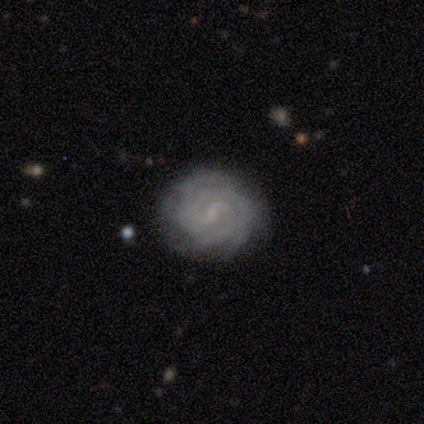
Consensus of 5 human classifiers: Morphology: type=featured or disk (80%); edge-on=no (100%); bar=no (75%); spiral arms=yes (100%); winding=tight (50%, tied with loose); arm count=2 (25%, tied with 3, 4 and can't tell); bulge=small (75%); merging=none (100%).